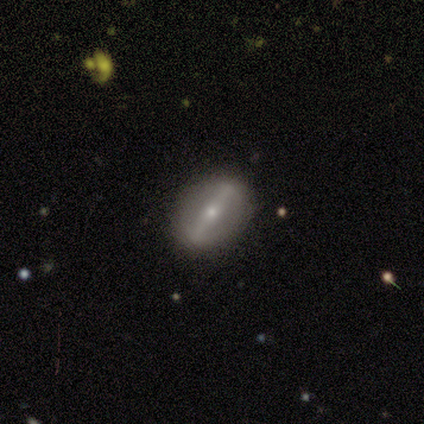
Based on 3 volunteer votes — featured or disk 100%, smooth 0%, star or artifact 0%. Down the decision tree: edge-on disk — no (67%); bar — strong (50%, tied with weak); spiral arms — no (100%); bulge size — small (100%); merging — none (100%).